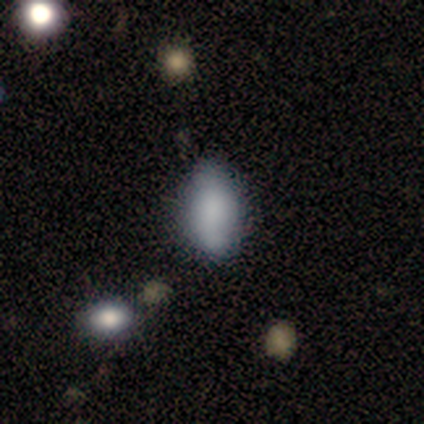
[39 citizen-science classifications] This appears to be a smooth galaxy with no disk features (82%) that is in between round and cigar-shaped (84%). Merging: none (51%).